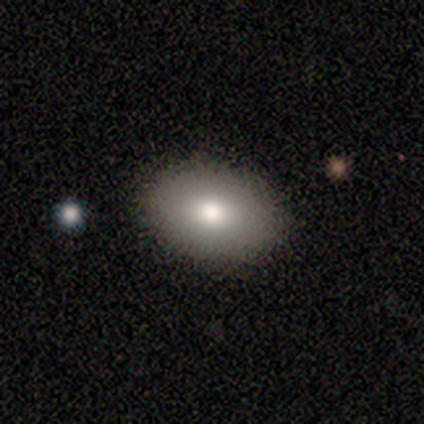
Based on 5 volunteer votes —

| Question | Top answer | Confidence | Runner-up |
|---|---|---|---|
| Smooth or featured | smooth | 60% | featured or disk (20%) |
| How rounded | in between | 100% | — |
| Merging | none | 75% | major disturbance (25%) |